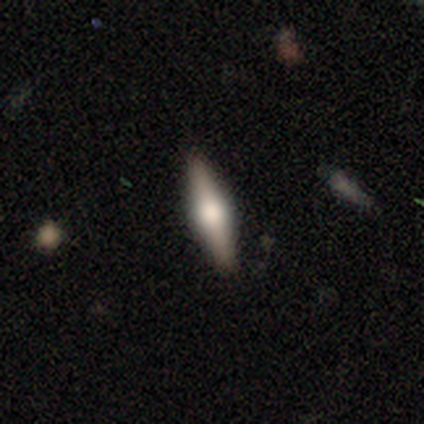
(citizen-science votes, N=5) smooth_or_featured: featured or disk (p=0.80) [alt: smooth p=0.20]
disk_edge_on: yes (p=1.00)
edge_on_bulge: rounded (p=1.00)
merging: none (p=1.00)